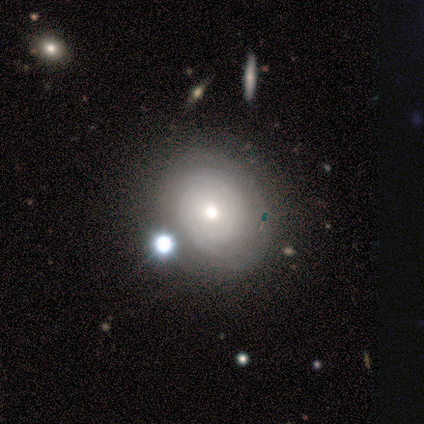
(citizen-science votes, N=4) This is clearly a featured or disk galaxy (100%). It is clearly not viewed edge-on (100%). Bar: clearly no (100%). Spiral arm pattern: clearly yes (100%). Spiral arm count: marginally 2 (25%, tied with 4, more than 4 and can't tell). Spiral winding: clearly tight (100%). Central bulge: likely moderate (75%). Merging: clearly none (100%).